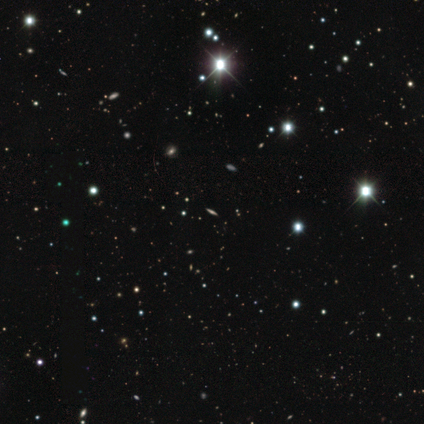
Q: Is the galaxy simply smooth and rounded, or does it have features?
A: star or artifact — 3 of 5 (60%).